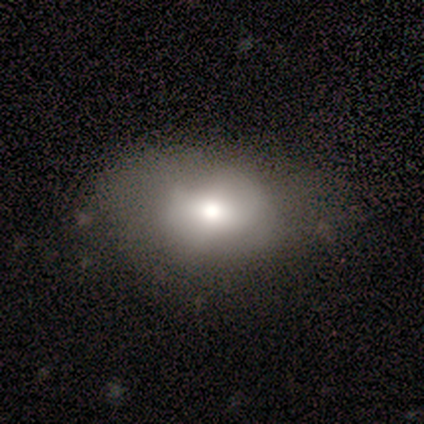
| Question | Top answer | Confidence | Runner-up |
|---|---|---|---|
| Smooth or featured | smooth | 68% | featured or disk (26%) |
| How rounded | in between | 69% | round (31%) |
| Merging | none | 47% | minor disturbance (33%) |